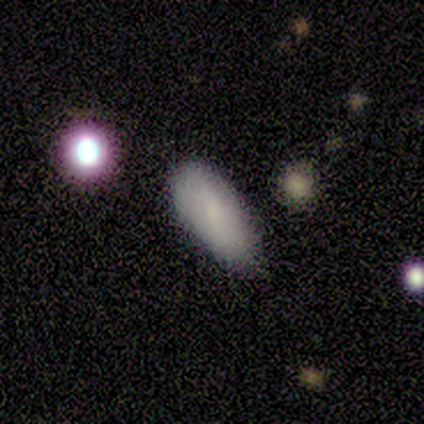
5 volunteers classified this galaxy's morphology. smooth_or_featured: smooth (p=1.00)
how_rounded: in between (p=1.00)
merging: minor disturbance (p=0.60) [alt: none p=0.40]